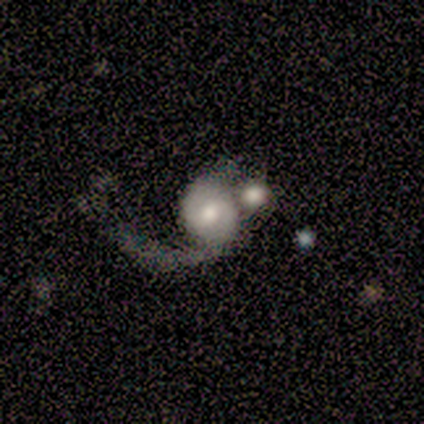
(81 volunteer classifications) A featured or disk galaxy (73%) with no bar (58%), 1 (51%) loose (64%) spiral arms (90%) and a moderate central bulge (56%).

Vote fractions:
- Smooth or featured? featured or disk: 73% / smooth: 19% / star or artifact: 9%
- Edge-on disk? no: 100% / yes: 0%
- Bar? no: 58% / weak: 39% / strong: 3%
- Spiral arms? yes: 90% / no: 10%
- Spiral winding? loose: 64% / medium: 21% / tight: 15%
- Spiral arm count? 1: 51% / 2: 43% / can't tell: 6% / 3: 0% / 4: 0% / more than 4: 0%
- Bulge size? moderate: 56% / small: 22% / large: 17% / none: 3% / dominant: 2%
- Merging? merger: 42% / major disturbance: 34% / none: 16% / minor disturbance: 8%